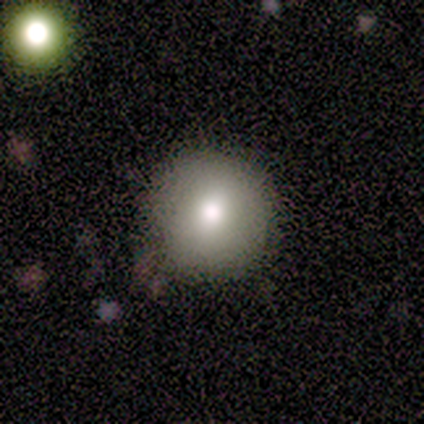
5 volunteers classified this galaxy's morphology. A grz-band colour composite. It shows a smooth galaxy with no disk features (80%) that is round (100%). Merging: none (100%).